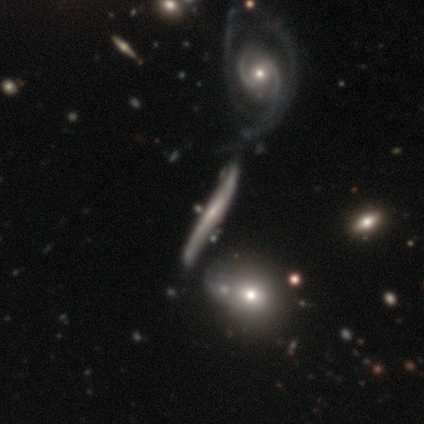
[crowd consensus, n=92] Morphology: type=featured or disk (71%); edge-on=yes (80%); edge-on bulge=none (42%, tied with rounded); merging=minor disturbance (33%).